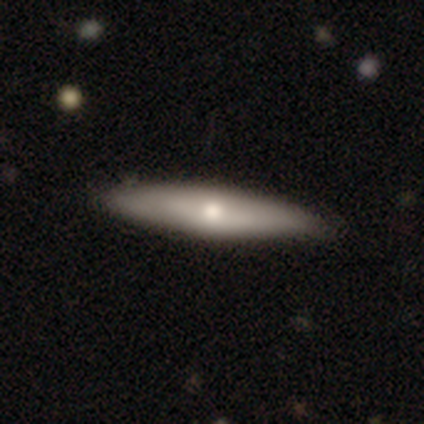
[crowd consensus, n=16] smooth_or_featured: smooth (p=0.50) [alt: featured or disk p=0.44]
how_rounded: cigar-shaped (p=0.75) [alt: in between p=0.25]
merging: none (p=0.93) [alt: minor disturbance p=0.07]